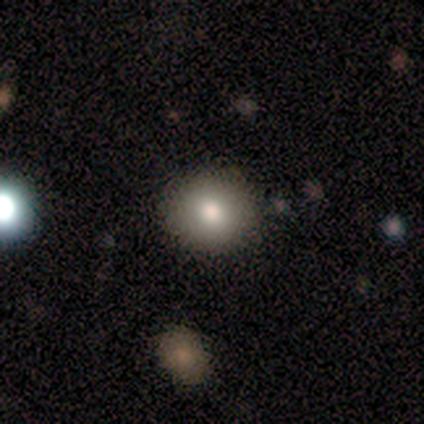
Q: Smooth or featured?
A: smooth (100%)
Q: How rounded?
A: round (100%)
Q: Merging?
A: none (100%)